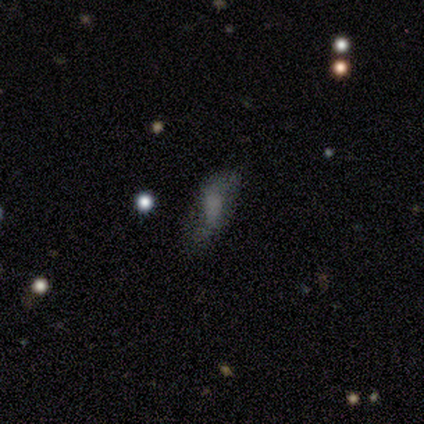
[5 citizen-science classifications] featured or disk 60%, smooth 20%, star or artifact 20%. Down the decision tree: edge-on disk — no (100%); bar — no (67%); spiral arms — yes (67%); spiral arm count — 2 (100%); spiral winding — medium (50%, tied with loose); bulge size — large (33%, tied with small and none); merging — none (75%).